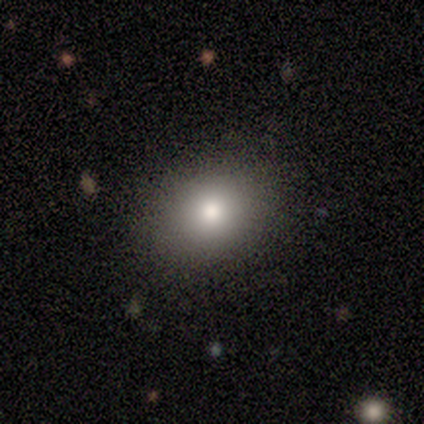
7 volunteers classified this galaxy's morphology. smooth-or-featured: smooth: 86% | star or artifact: 14% | featured or disk: 0%
  how-rounded: round: 50% (tied) | in between: 50% (tied) | cigar-shaped: 0%
  merging: none: 67% | minor disturbance: 17% | major disturbance: 17% | merger: 0%